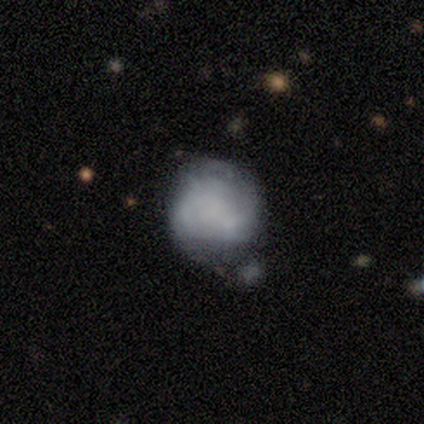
Volunteers were most divided on "smooth or featured" (2-way tie): smooth: 40%, featured or disk: 40%, star or artifact: 20%. More confident: how rounded — round (100%); merging — minor disturbance (50%).